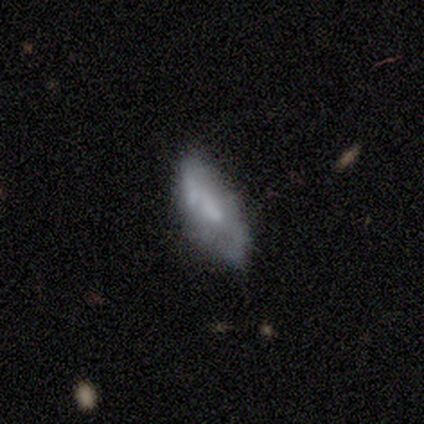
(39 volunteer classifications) Q: Smooth or featured?
A: featured or disk (64%); runner-up: smooth (31%)
Q: Edge-on disk?
A: no (96%); runner-up: yes (4%)
Q: Bar?
A: no (58%); runner-up: weak (38%)
Q: Spiral arms?
A: no (67%); runner-up: yes (33%)
Q: Bulge size?
A: small (42%); runner-up: none (38%)
Q: Merging?
A: minor disturbance (32%); runner-up: none (27%)